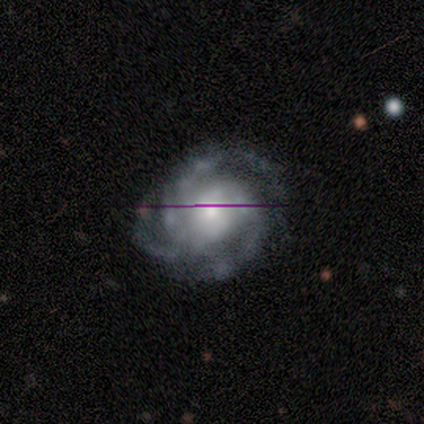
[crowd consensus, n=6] Smooth or featured? 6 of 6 (100%) said featured or disk. Edge-on disk? 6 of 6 (100%) said no. Bar? 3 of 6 (50%) said weak. Spiral arms? 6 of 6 (100%) said yes. Spiral winding? 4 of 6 (67%) said tight. Spiral arm count? 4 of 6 (67%) said 3. Bulge size? 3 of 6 (50%, tied with small) said moderate. Merging? 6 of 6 (100%) said none.